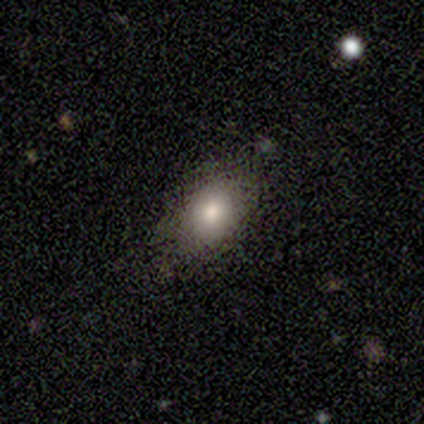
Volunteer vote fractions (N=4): A smooth galaxy with no disk features (75%) that is in between round and cigar-shaped (67%). Merging: none (67%).